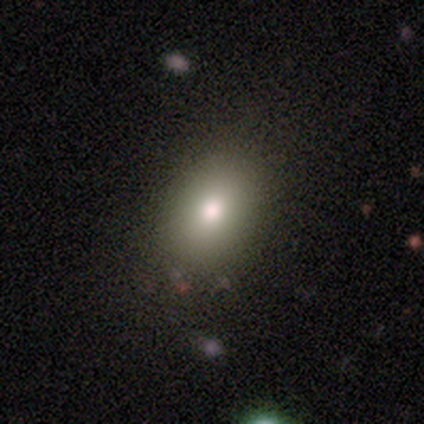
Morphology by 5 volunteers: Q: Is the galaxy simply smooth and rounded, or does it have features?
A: smooth — 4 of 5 (80%).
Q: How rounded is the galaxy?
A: in between — 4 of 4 (100%).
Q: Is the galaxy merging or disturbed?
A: none — 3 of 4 (75%).